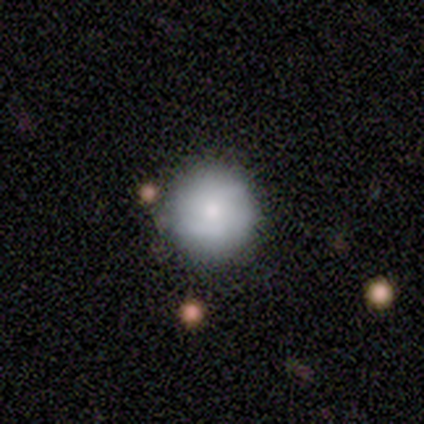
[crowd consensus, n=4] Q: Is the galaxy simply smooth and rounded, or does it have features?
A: smooth — 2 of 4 (50%, tied with featured or disk).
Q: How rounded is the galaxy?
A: round — 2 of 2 (100%).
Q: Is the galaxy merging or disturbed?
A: none — 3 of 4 (75%).